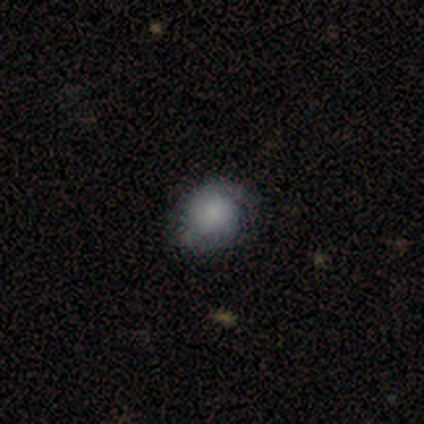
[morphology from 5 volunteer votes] smooth_or_featured: smooth (p=0.80) [alt: featured or disk p=0.20]
how_rounded: round (p=0.50) [tied with: in between p=0.50]
merging: none (p=0.60) [alt: minor disturbance p=0.40]